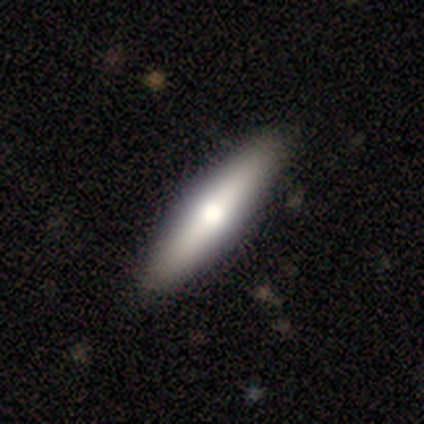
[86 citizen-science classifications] Smooth or featured?
  - featured or disk: 49% *
  - smooth: 45%
  - star or artifact: 6%
Edge-on disk?
  - yes: 95% *
  - no: 5%
Edge-on bulge?
  - rounded: 88% *
  - boxy: 8%
  - none: 5%
Merging?
  - none: 85% *
  - minor disturbance: 12%
  - major disturbance: 1%
  - merger: 1%